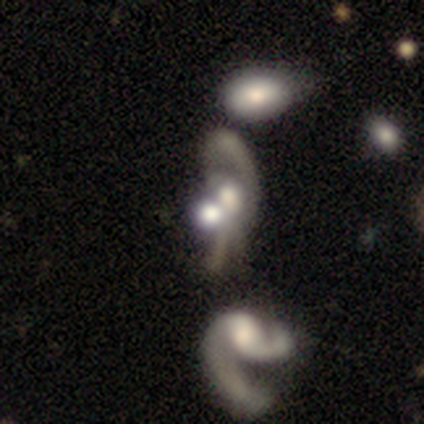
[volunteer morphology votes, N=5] This appears to be a featured or disk galaxy (60%) with no bar (100%), 1 (50%, tied with can't tell) loose (100%) spiral arms (67%) and a moderate central bulge (67%). Merging: major disturbance (67%).